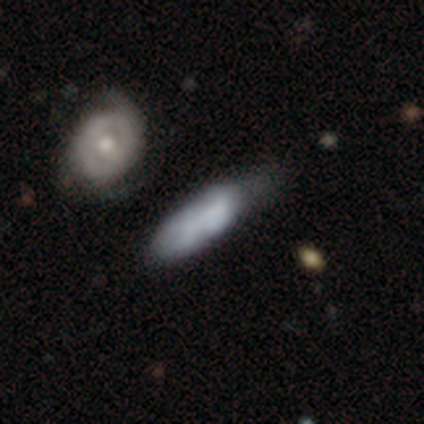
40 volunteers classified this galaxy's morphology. Smooth or featured?
  - smooth: 55% *
  - featured or disk: 32%
  - star or artifact: 12%
How rounded?
  - in between: 73% *
  - cigar-shaped: 27%
  - round: 0%
Merging?
  - minor disturbance: 23% *
  - none: 20%
  - merger: 20%
  - major disturbance: 9%